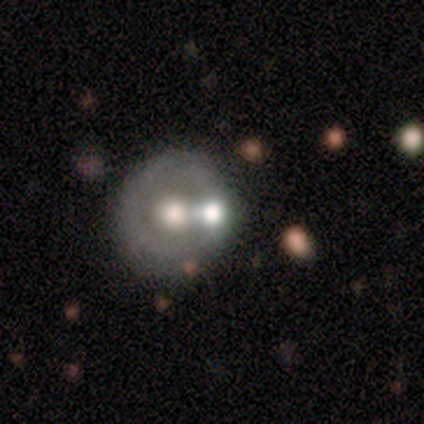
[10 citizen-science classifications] A featured or disk galaxy (60%) with no bar (83%), no spiral arms (100%) and a moderate central bulge (83%).

Vote fractions:
- Smooth or featured? featured or disk: 60% / smooth: 30% / star or artifact: 10%
- Edge-on disk? no: 100% / yes: 0%
- Bar? no: 83% / weak: 17% / strong: 0%
- Spiral arms? no: 100% / yes: 0%
- Bulge size? moderate: 83% / large: 17% / dominant: 0% / small: 0% / none: 0%
- Merging? none: 56% / minor disturbance: 33% / merger: 11% / major disturbance: 0%